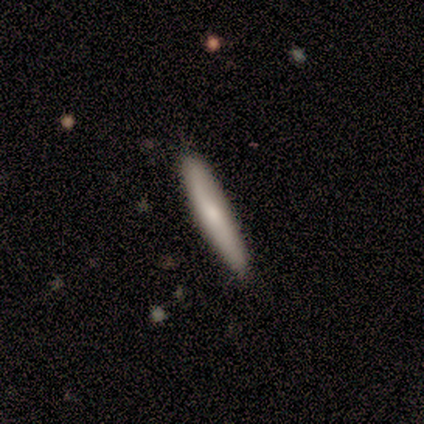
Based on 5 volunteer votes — Smooth or featured? smooth (60%)
How rounded? cigar-shaped (100%)
Merging? none (60%)